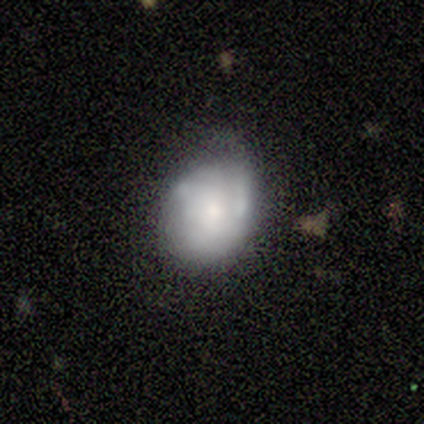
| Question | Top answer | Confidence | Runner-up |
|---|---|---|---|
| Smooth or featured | featured or disk | 75% | smooth (25%) |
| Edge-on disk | no | 100% | — |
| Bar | no | 100% | — |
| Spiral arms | yes | 67% | no (33%) |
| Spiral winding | tight | 50% | tied: loose (50%) |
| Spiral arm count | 2 | 50% | tied: can't tell (50%) |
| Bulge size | moderate | 67% | small (33%) |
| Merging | none | 50% | minor disturbance (25%) |